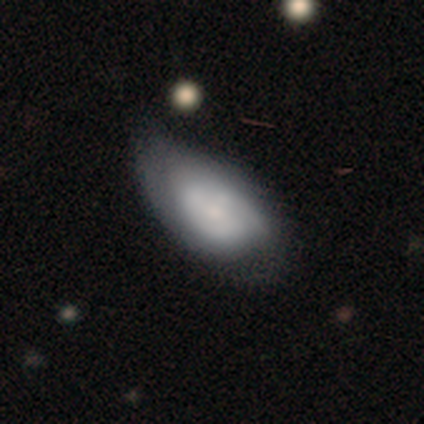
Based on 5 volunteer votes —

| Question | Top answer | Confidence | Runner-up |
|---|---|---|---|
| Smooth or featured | featured or disk | 80% | smooth (20%) |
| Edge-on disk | no | 100% | — |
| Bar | no | 75% | weak (25%) |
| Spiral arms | yes | 75% | no (25%) |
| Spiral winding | tight | 33% | tied: medium (33%), loose (33%) |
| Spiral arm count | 2 | 67% | 1 (33%) |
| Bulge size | small | 50% | large (25%) |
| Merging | minor disturbance | 80% | major disturbance (20%) |